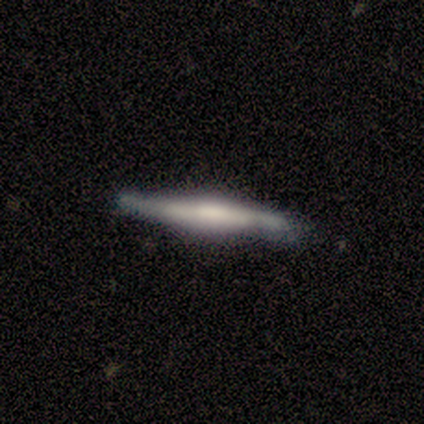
Smooth or featured? featured or disk (60%)
Edge-on disk? yes (100%)
Edge-on bulge? boxy (33%, tied with none and rounded)
Merging? none (60%)